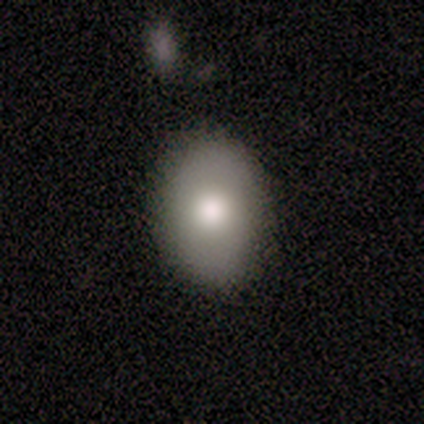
Q: Smooth or featured?
A: smooth (80%); runner-up: star or artifact (20%)
Q: How rounded?
A: round (50%); tied with: in between (50%)
Q: Merging?
A: none (100%)